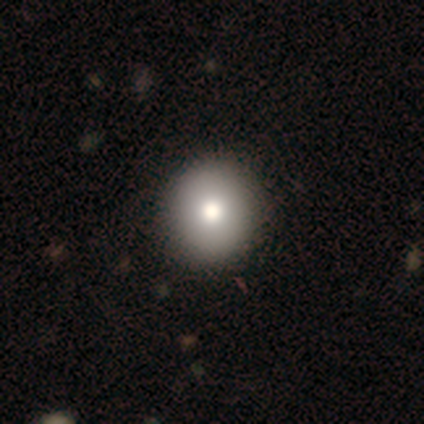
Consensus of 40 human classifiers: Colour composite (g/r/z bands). It shows a smooth galaxy with no disk features (85%) that is round (88%). Merging: none (74%).